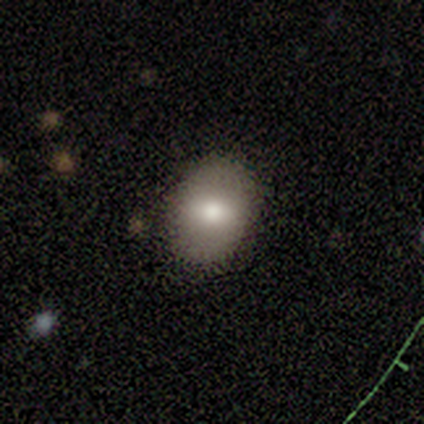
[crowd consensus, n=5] Q: Smooth or featured?
A: smooth (100%)
Q: How rounded?
A: in between (100%)
Q: Merging?
A: none (80%); runner-up: minor disturbance (20%)